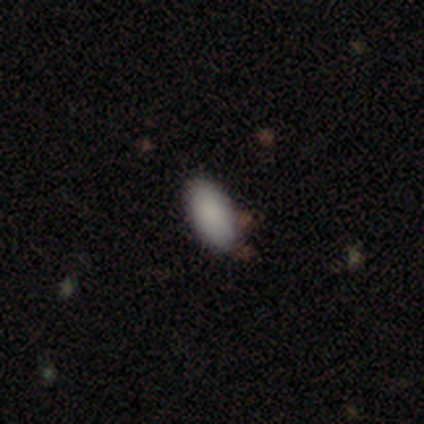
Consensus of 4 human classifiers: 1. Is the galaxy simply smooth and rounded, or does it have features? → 100% smooth, 0% featured or disk, 0% star or artifact.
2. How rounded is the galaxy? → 100% in between, 0% round, 0% cigar-shaped.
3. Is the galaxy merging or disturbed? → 100% none, 0% minor disturbance, 0% major disturbance, 0% merger.